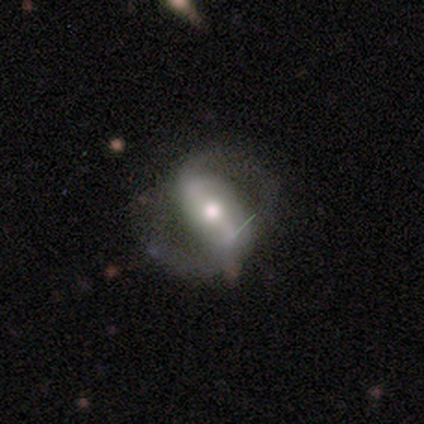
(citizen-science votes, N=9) smooth-or-featured: featured or disk: 89% | smooth: 11% | star or artifact: 0%
  disk-edge-on: no: 88% | yes: 12%
    bar: strong: 71% | weak: 14% | no: 14%
    has-spiral-arms: yes: 100% | no: 0%
      spiral-winding: medium: 57% | loose: 43% | tight: 0%
      spiral-arm-count: 2: 100% | 1: 0% | 3: 0% | 4: 0% | more than 4: 0% | can't tell: 0%
    bulge-size: moderate: 86% | small: 14% | dominant: 0% | large: 0% | none: 0%
  merging: none: 67% | major disturbance: 22% | minor disturbance: 11% | merger: 0%